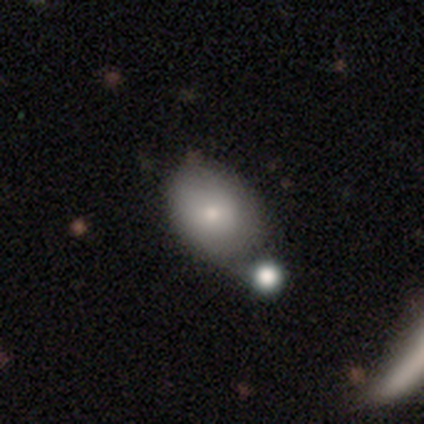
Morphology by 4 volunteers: This is likely a smooth galaxy (75%). How rounded: clearly in between (100%). Merging: possibly merger (50%).